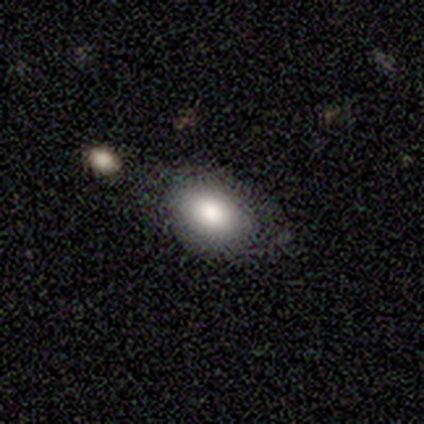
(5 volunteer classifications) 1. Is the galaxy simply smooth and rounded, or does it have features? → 80% smooth, 20% star or artifact, 0% featured or disk.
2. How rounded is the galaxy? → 100% in between, 0% round, 0% cigar-shaped.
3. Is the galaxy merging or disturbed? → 75% none, 25% minor disturbance, 0% major disturbance, 0% merger.